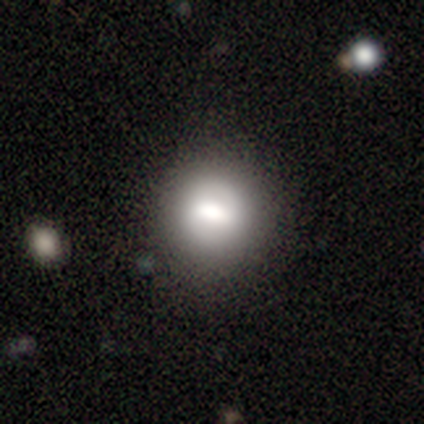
A smooth galaxy with no disk features (66%) that is round (82%). Merging: none (77%).